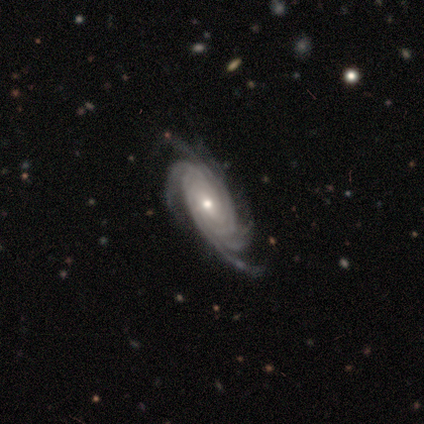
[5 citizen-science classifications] This is clearly a featured or disk galaxy (100%). It is clearly not viewed edge-on (100%). Bar: clearly no (80%). Spiral arm pattern: clearly yes (100%). Spiral arm count: marginally more than 4 (40%). Spiral winding: clearly tight (80%). Central bulge: likely small (60%). Merging: clearly none (100%).